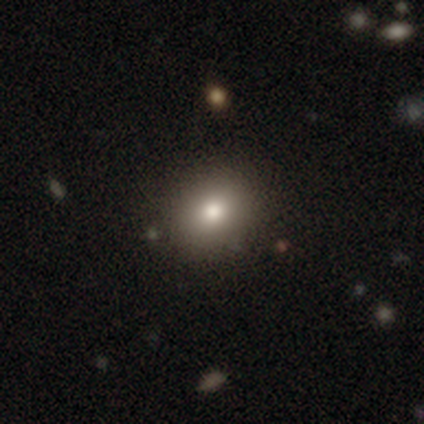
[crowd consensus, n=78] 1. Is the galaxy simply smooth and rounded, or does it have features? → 79% smooth, 14% featured or disk, 6% star or artifact.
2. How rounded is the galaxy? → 66% round, 34% in between, 0% cigar-shaped.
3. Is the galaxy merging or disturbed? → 47% none, 5% merger, 1% minor disturbance, 0% major disturbance.